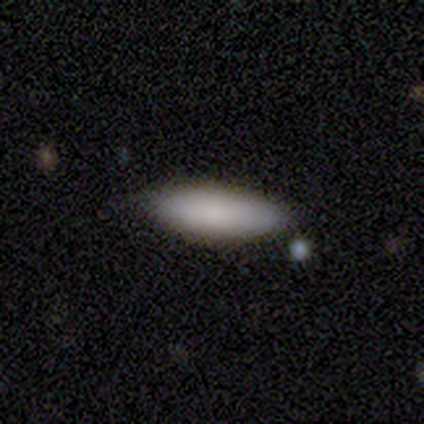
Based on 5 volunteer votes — Smooth or featured? smooth (100%)
How rounded? in between (60%)
Merging? none (80%)